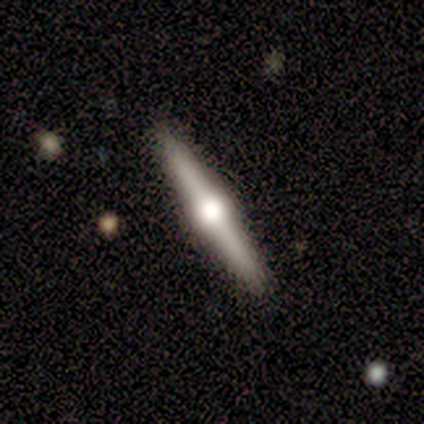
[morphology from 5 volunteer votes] Overall: featured or disk (60%; smooth 20%). Edge-on disk: yes (100%). Edge-on bulge: rounded (100%). Merging: none (100%).